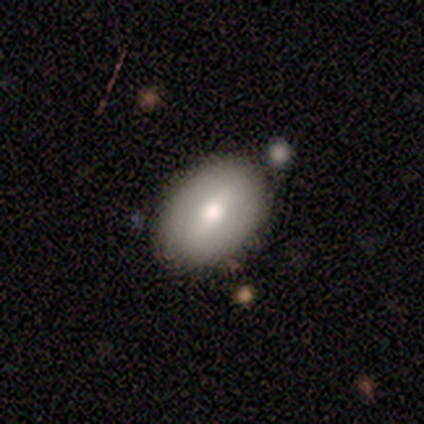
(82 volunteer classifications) Smooth or featured? smooth (61%)
How rounded? in between (80%)
Merging? none (90%)